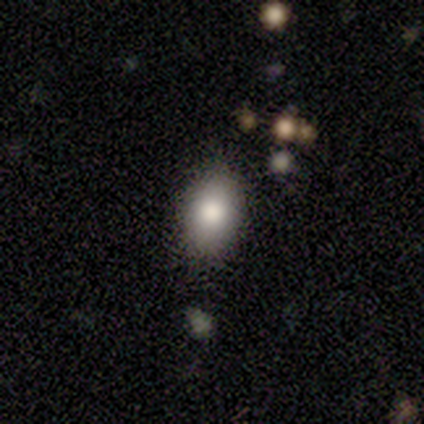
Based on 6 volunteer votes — smooth 83%, star or artifact 17%, featured or disk 0%. Down the decision tree: how rounded — in between (100%); merging — none (60%).